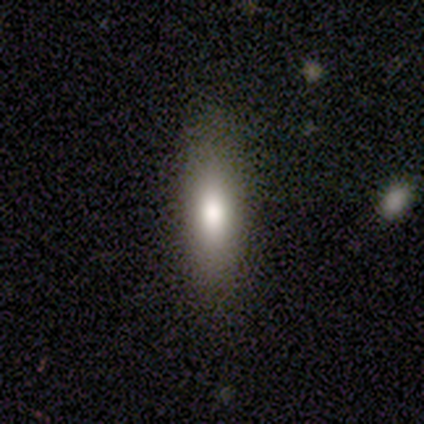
This appears to be a smooth galaxy with no disk features (74%) that is cigar-shaped (54%). Merging: none (85%).